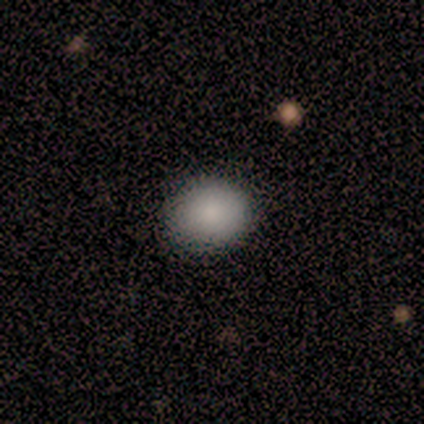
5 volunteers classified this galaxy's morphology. Q: Smooth or featured?
A: smooth (100%)
Q: How rounded?
A: round (80%); runner-up: in between (20%)
Q: Merging?
A: none (100%)